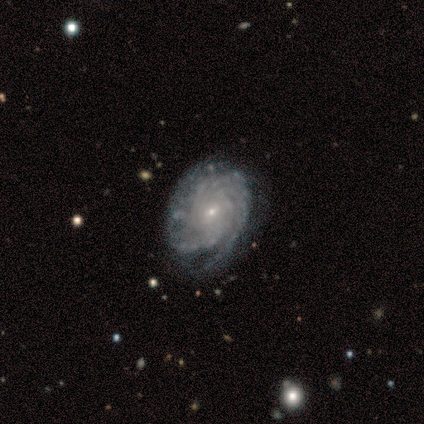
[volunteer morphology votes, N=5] A featured or disk galaxy (100%) with no bar (80%), tight (100%) spiral arms (100%) and a small central bulge (100%). Merging: none (100%).